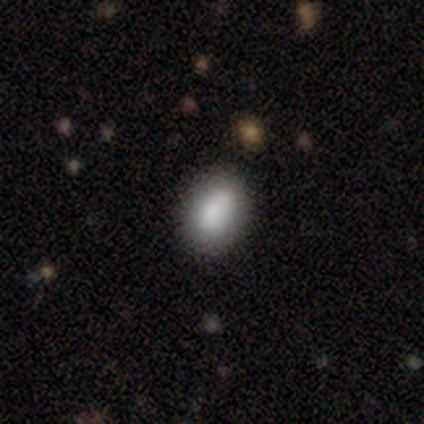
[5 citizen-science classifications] Volunteers were most divided on "merging": none: 60%, minor disturbance: 40%, major disturbance: 0%, merger: 0%. More confident: smooth or featured — smooth (100%); how rounded — in between (80%).